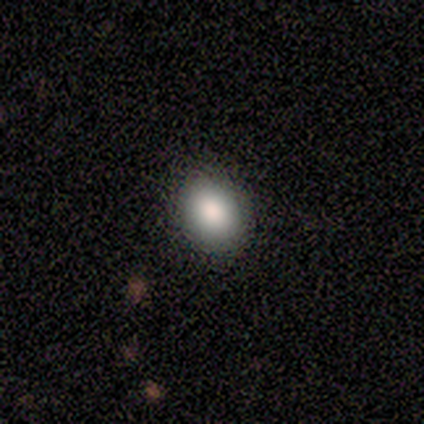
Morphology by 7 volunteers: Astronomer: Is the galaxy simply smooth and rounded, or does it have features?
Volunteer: smooth — 57%.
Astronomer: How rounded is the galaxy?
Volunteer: round — 50%, tied with in between at 50%.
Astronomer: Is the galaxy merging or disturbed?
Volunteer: none — 100%.